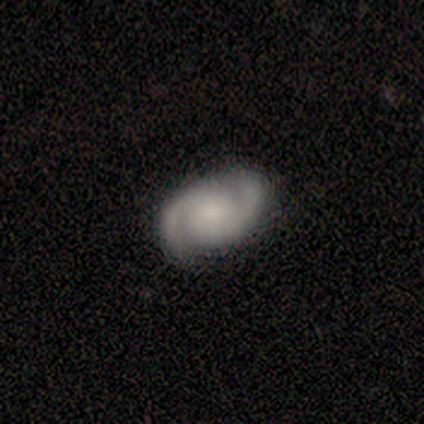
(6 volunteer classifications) This appears to be a featured or disk galaxy (100%) with a weak bar (60%), 2 (100%) medium (60%) spiral arms (100%) and a moderate central bulge (40%, tied with small). Merging: none (83%).